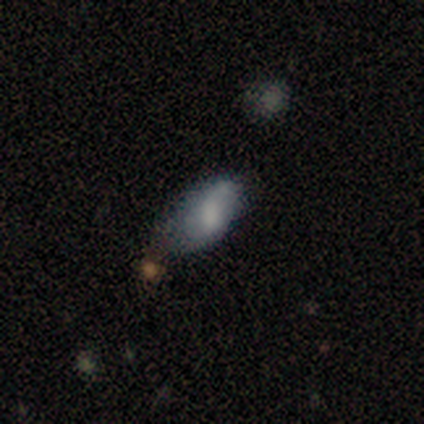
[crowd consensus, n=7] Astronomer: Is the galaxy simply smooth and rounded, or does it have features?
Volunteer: smooth — 57%.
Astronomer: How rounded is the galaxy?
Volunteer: in between — 100%.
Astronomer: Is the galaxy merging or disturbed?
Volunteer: none — 33%, tied with minor disturbance and major disturbance at 33%.